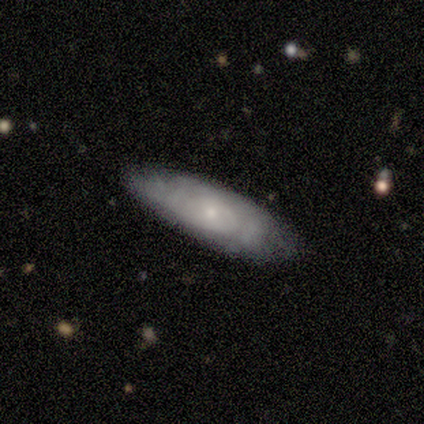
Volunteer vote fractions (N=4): This appears to be a smooth galaxy with no disk features (100%) that is in between round and cigar-shaped (50%, tied with cigar-shaped). Merging: none (100%).